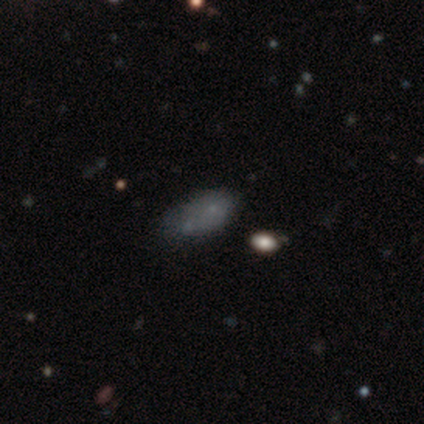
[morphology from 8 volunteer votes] smooth-or-featured: smooth: 62% | featured or disk: 25% | star or artifact: 12%
  how-rounded: in between: 100% | round: 0% | cigar-shaped: 0%
  merging: none: 57% | merger: 29% | minor disturbance: 14% | major disturbance: 0%